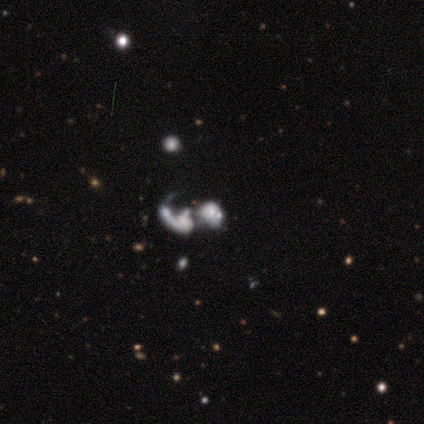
A featured or disk galaxy (85%) with no bar (82%), no spiral arms (55%) and no central bulge (36%).

Vote fractions:
- Smooth or featured? featured or disk: 85% / smooth: 15% / star or artifact: 0%
- Edge-on disk? no: 100% / yes: 0%
- Bar? no: 82% / strong: 9% / weak: 9%
- Spiral arms? no: 55% / yes: 45%
- Bulge size? none: 36% / small: 27% / large: 18% / moderate: 18% / dominant: 0%
- Merging? merger: 85% / minor disturbance: 8% / major disturbance: 8% / none: 0%